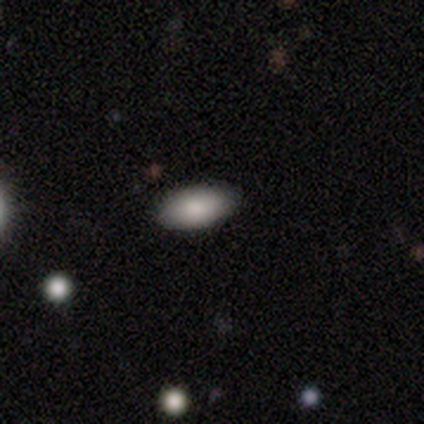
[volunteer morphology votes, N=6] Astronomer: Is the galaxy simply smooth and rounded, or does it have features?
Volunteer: smooth — 83%.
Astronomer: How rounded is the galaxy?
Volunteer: in between — 100%.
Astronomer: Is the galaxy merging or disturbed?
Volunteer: none — 100%.